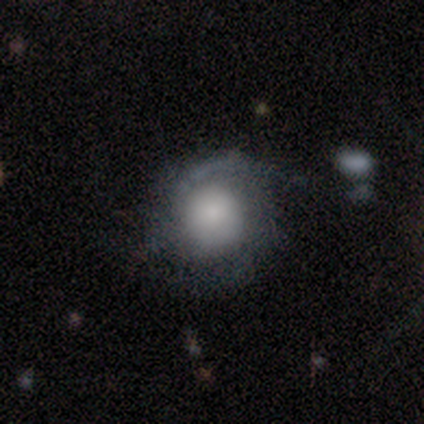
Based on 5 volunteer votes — A featured or disk galaxy (100%) with no bar (100%), 1 (40%, tied with 2) tight (80%) spiral arms (100%) and a large central bulge (60%). Merging: none (80%).